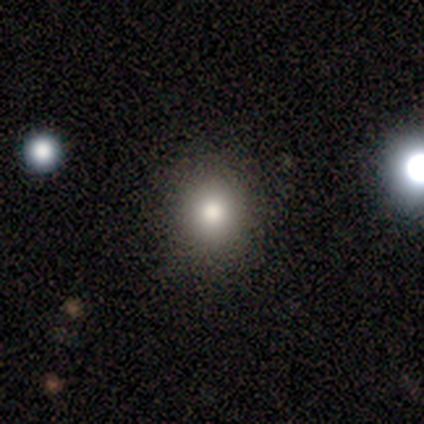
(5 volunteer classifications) Smooth or featured?
  - smooth: 100% *
  - featured or disk: 0%
  - star or artifact: 0%
How rounded?
  - round: 80% *
  - in between: 20%
  - cigar-shaped: 0%
Merging?
  - none: 60% *
  - major disturbance: 40%
  - minor disturbance: 0%
  - merger: 0%